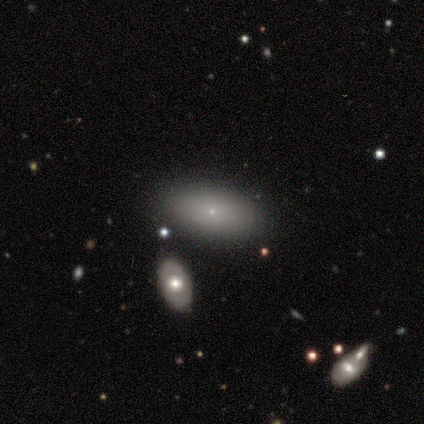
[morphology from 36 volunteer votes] Overall: smooth (78%). How rounded: in between (86%). Merging: none (82%).